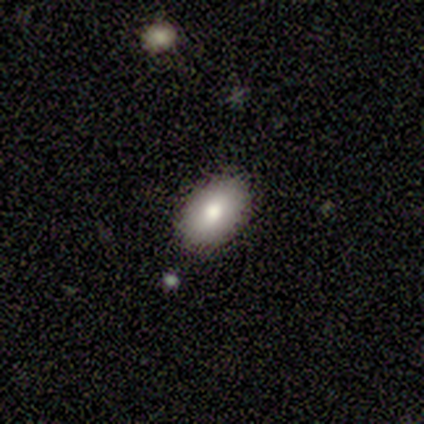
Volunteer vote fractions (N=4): A smooth galaxy with no disk features (100%) that is in between round and cigar-shaped (100%). Merging: none (100%).